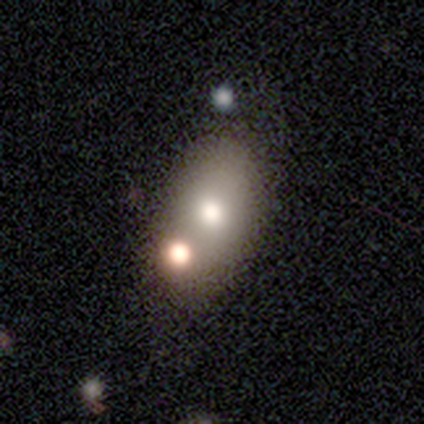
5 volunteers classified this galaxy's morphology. This appears to be a smooth galaxy with no disk features (60%) that is in between round and cigar-shaped (100%). Merging: minor disturbance (40%, tied with merger).